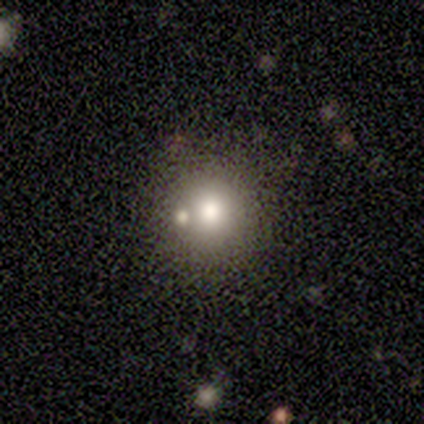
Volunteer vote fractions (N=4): Overall: smooth (75%). How rounded: round (67%; cigar-shaped 33%). Merging: none (100%).